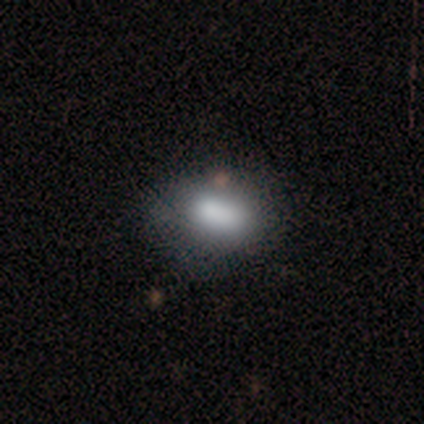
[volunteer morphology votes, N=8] smooth_or_featured: smooth (p=0.88) [alt: star or artifact p=0.12]
how_rounded: in between (p=0.86) [alt: round p=0.14]
merging: none (p=0.86) [alt: major disturbance p=0.14]